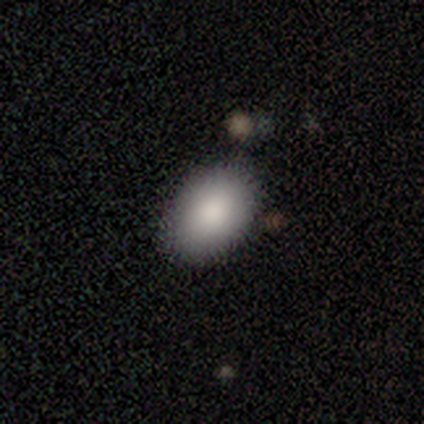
Smooth or featured?
  - smooth: 87% *
  - star or artifact: 8%
  - featured or disk: 5%
How rounded?
  - in between: 91% *
  - round: 6%
  - cigar-shaped: 3%
Merging?
  - none: 78% *
  - minor disturbance: 14%
  - major disturbance: 6%
  - merger: 3%